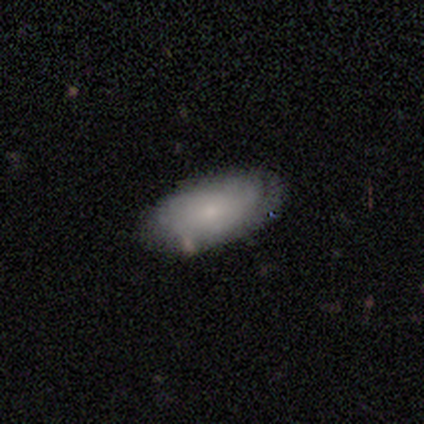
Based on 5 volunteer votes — Smooth or featured: featured or disk — 60% (smooth — 20%)
Edge-on disk: no — 100%
Bar: no — 100%
Spiral arms: no — 100%
Bulge size: small — 67% (none — 33%)
Merging: none — 75% (major disturbance — 25%)